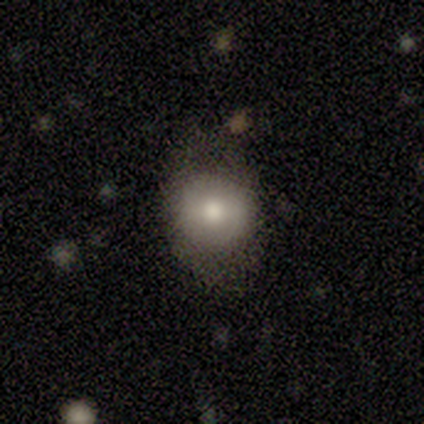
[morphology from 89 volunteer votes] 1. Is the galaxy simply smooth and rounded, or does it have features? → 72% smooth, 20% featured or disk, 8% star or artifact.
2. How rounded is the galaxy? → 66% round, 34% in between, 0% cigar-shaped.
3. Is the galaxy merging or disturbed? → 71% none, 15% minor disturbance, 12% major disturbance, 2% merger.